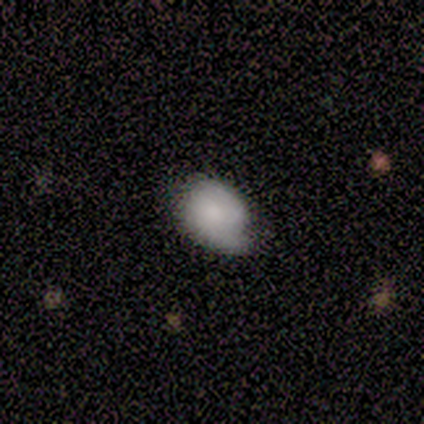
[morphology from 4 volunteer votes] A featured or disk galaxy (50%, tied with star or artifact) with no bar (100%), tight (100%) spiral arms (50%, tied with no) and a moderate central bulge (100%). Merging: none (50%, tied with major disturbance).